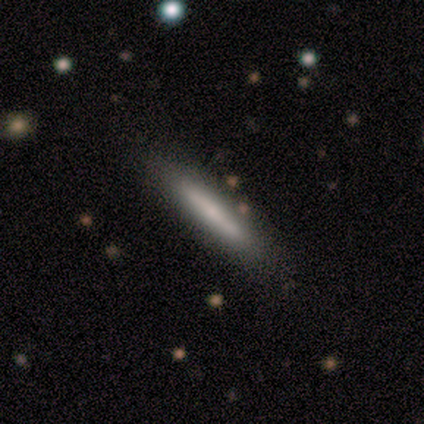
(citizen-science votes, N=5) Smooth or featured: featured or disk — 60% (smooth — 40%)
Edge-on disk: yes — 100%
Edge-on bulge: rounded — 100%
Merging: none — 80% (major disturbance — 20%)